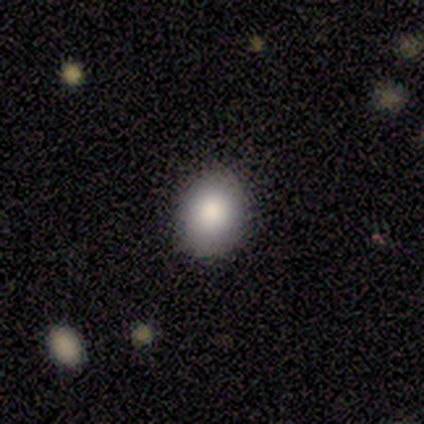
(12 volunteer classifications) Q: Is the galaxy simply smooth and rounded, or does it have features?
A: smooth — 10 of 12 (83%).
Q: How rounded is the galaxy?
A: in between — 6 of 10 (60%).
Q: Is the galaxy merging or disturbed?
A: none — 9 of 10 (90%).